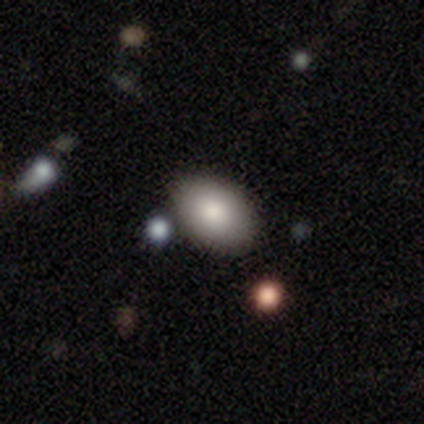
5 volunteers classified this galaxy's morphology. smooth-or-featured: smooth: 80% | featured or disk: 20% | star or artifact: 0%
  how-rounded: in between: 100% | round: 0% | cigar-shaped: 0%
  merging: none: 40% (tied) | minor disturbance: 40% (tied) | merger: 20% | major disturbance: 0%